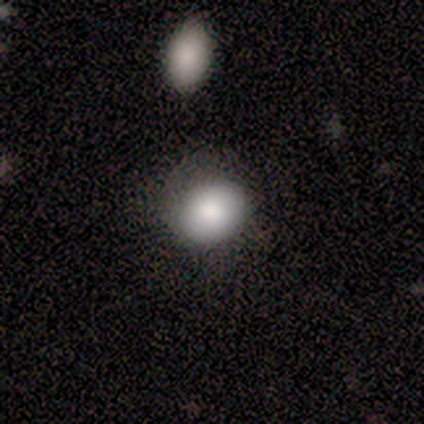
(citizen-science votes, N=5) Smooth or featured? 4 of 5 (80%) said smooth. How rounded? 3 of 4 (75%) said round. Merging? 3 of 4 (75%) said none.